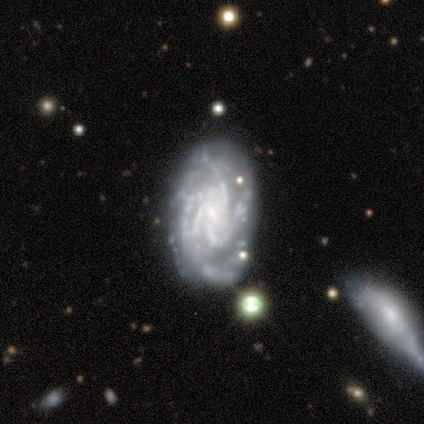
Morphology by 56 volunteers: smooth-or-featured: featured or disk: 95% | star or artifact: 4% | smooth: 2%
  disk-edge-on: no: 96% | yes: 4%
    bar: no: 57% | weak: 33% | strong: 10%
    has-spiral-arms: yes: 92% | no: 8%
      spiral-winding: tight: 66% | medium: 32% | loose: 2%
      spiral-arm-count: 4: 40% | 3: 21% | can't tell: 21% | more than 4: 17% | 1: 0% | 2: 0%
    bulge-size: small: 75% | none: 16% | moderate: 6% | large: 4% | dominant: 0%
  merging: none: 74% | minor disturbance: 17% | major disturbance: 7% | merger: 2%